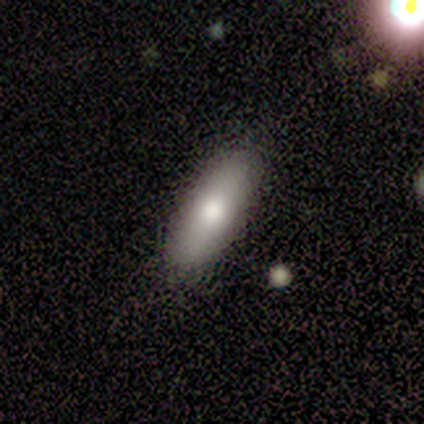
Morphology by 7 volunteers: type=smooth (86%); roundness=in between (67%); merging=none (100%).